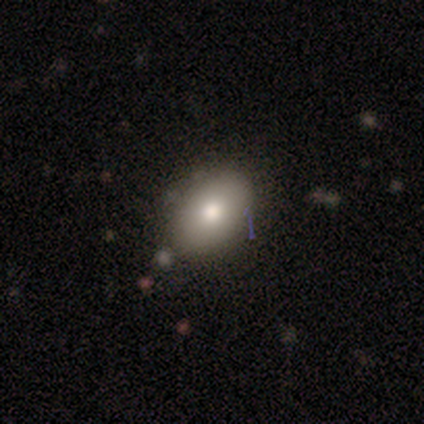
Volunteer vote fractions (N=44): A smooth galaxy with no disk features (89%) that is in between round and cigar-shaped (82%). Merging: none (86%).